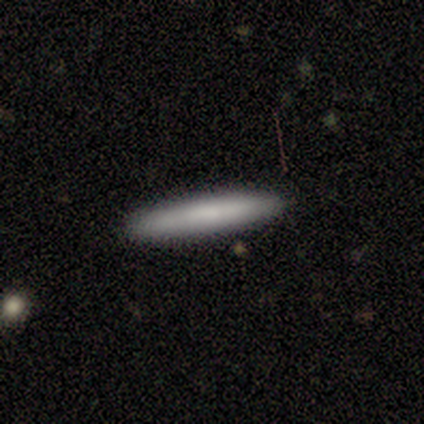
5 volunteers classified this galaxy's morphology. Smooth or featured: smooth — 80% (featured or disk — 20%)
How rounded: cigar-shaped — 50% (round — 25%)
Merging: none — 80% (merger — 20%)